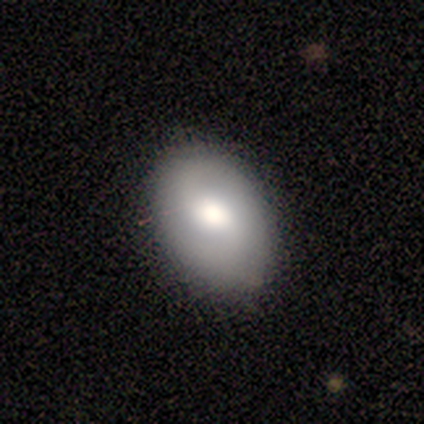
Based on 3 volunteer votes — Q: Smooth or featured?
A: smooth (67%); runner-up: featured or disk (33%)
Q: How rounded?
A: in between (100%)
Q: Merging?
A: none (100%)